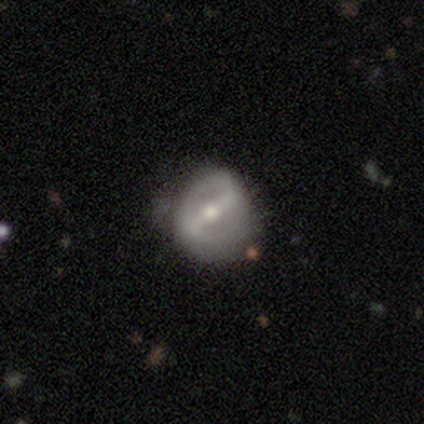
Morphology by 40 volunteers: Smooth or featured? 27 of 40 (68%) said featured or disk. Edge-on disk? 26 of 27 (96%) said no. Bar? 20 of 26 (77%) said strong. Spiral arms? 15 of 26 (58%) said yes. Spiral winding? 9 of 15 (60%) said medium. Spiral arm count? 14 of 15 (93%) said 2. Bulge size? 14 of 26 (54%) said moderate. Merging? 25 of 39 (64%) said none.